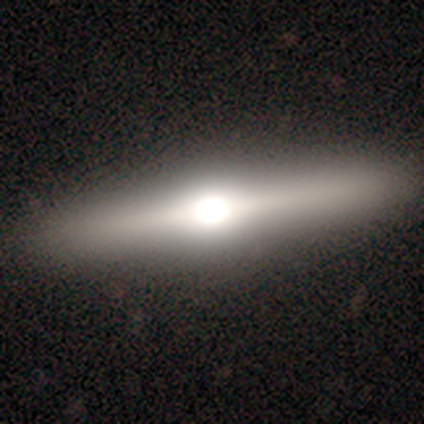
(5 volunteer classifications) This is likely a featured or disk galaxy (60%). It is clearly viewed edge-on (100%). Edge-on bulge: clearly rounded (100%). Merging: clearly none (80%).